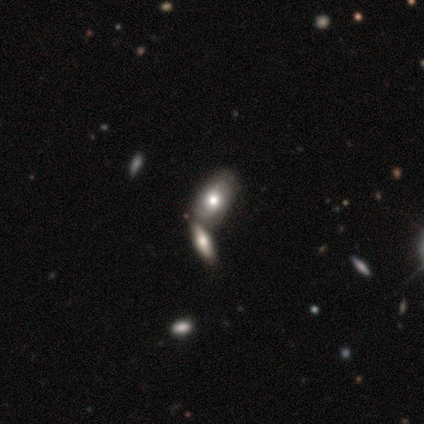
Smooth or featured: smooth — 50% (featured or disk — 25%)
How rounded: in between — 100%
Merging: none — 67% (merger — 33%)